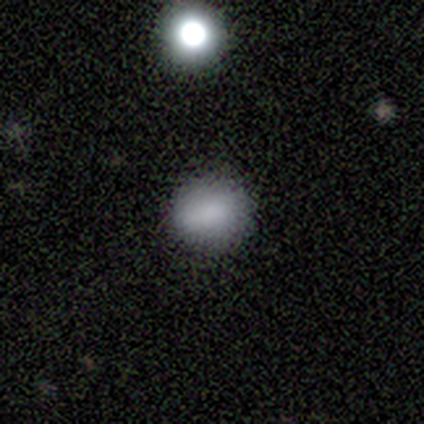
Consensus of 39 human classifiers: Volunteers were most divided on "how rounded": round: 72%, in between: 24%, cigar-shaped: 3%. More confident: merging — none (84%); smooth or featured — smooth (74%).